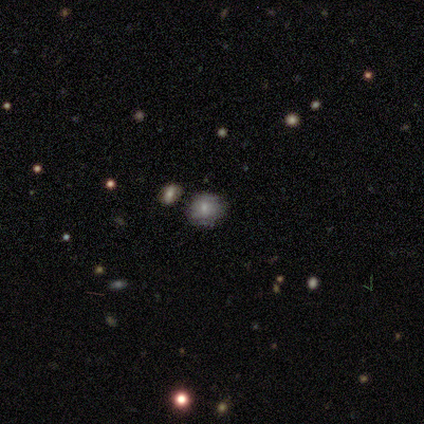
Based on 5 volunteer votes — This appears to be a smooth galaxy with no disk features (80%) that is round (75%). Merging: none (75%).